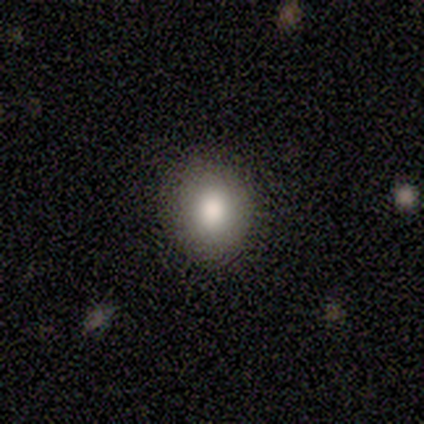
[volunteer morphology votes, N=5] Smooth or featured? smooth (80%)
How rounded? round (75%)
Merging? none (75%)